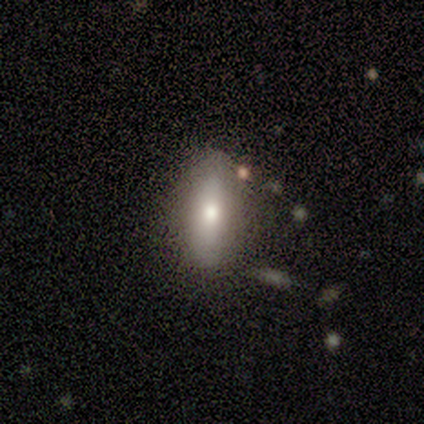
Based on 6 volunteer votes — Morphology: type=smooth (83%); roundness=in between (80%); merging=none (67%).